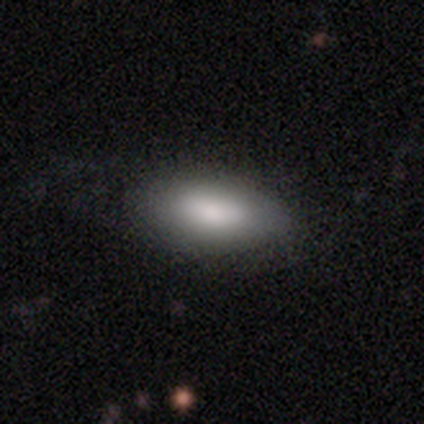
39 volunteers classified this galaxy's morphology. smooth_or_featured: smooth (p=0.97) [alt: star or artifact p=0.03]
how_rounded: in between (p=0.87) [alt: cigar-shaped p=0.08]
merging: none (p=0.82) [alt: minor disturbance p=0.11]